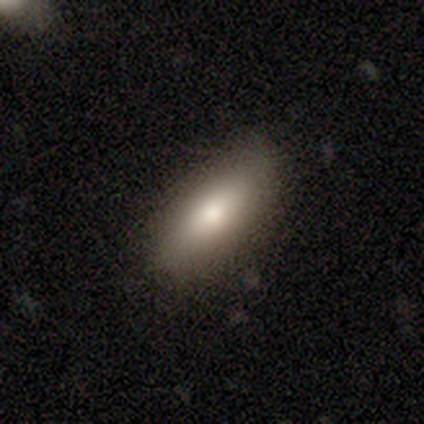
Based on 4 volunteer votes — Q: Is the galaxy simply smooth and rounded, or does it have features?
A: smooth — 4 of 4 (100%).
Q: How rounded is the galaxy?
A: in between — 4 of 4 (100%).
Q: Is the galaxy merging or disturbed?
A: none — 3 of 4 (75%).